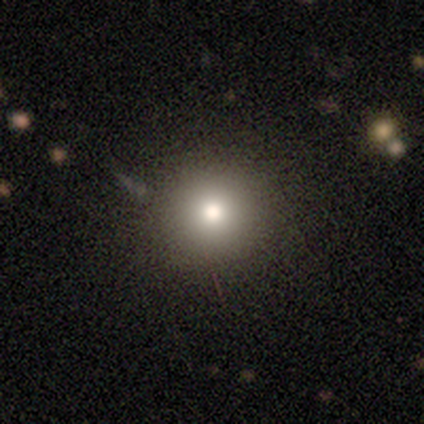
This appears to be a smooth galaxy with no disk features (80%) that is round (100%). Merging: none (100%).